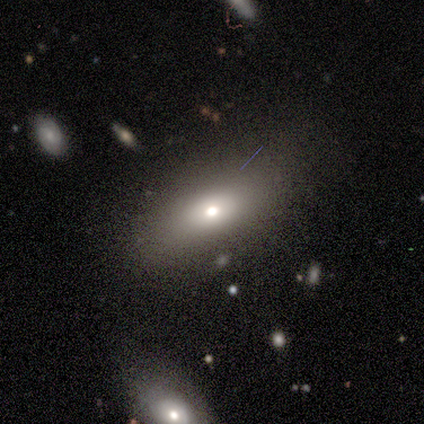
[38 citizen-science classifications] This appears to be a smooth galaxy with no disk features (79%) that is in between round and cigar-shaped (73%). Merging: none (74%).